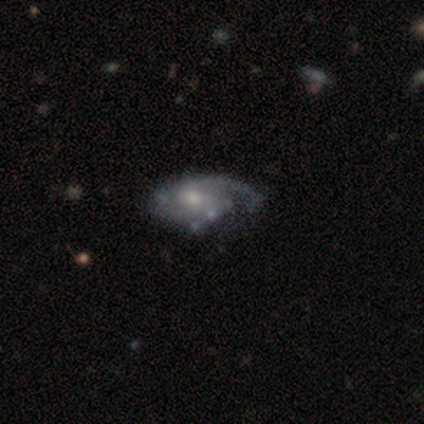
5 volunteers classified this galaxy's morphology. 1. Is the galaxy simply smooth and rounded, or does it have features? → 60% featured or disk, 40% star or artifact, 0% smooth.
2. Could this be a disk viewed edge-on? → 100% no, 0% yes.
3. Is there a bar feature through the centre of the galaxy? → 67% no, 33% strong, 0% weak.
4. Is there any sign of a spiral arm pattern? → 100% yes, 0% no.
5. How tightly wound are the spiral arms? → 33% tight (tied), 33% medium (tied), 33% loose (tied).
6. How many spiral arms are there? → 33% 1 (tied), 33% 3 (tied), 33% can't tell (tied), 0% 2, 0% 4, 0% more than 4.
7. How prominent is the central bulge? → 67% small, 33% moderate, 0% dominant, 0% large, 0% none.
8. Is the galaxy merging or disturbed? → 67% major disturbance, 33% minor disturbance, 0% none, 0% merger.